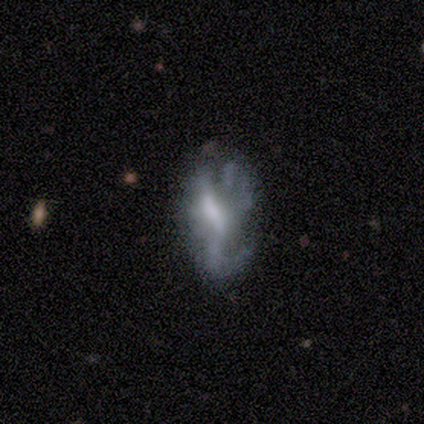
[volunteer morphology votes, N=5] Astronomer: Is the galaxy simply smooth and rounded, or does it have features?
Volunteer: featured or disk — 100%.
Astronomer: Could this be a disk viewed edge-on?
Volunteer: no — 100%.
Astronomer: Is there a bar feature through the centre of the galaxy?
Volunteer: weak — 60% (runner-up: no, 40%).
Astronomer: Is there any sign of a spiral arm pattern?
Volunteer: yes — 60% (runner-up: no, 40%).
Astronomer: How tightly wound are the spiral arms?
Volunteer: loose — 67%.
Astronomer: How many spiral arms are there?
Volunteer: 1 — 67%.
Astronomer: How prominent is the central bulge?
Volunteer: moderate — 40%, tied with small at 40%.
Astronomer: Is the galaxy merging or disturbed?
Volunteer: none — 40%, tied with major disturbance at 40%.